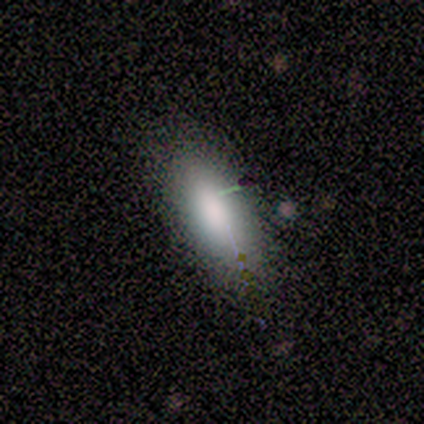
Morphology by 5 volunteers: smooth-or-featured: smooth: 60% | featured or disk: 20% | star or artifact: 20%
  how-rounded: in between: 67% | cigar-shaped: 33% | round: 0%
  merging: none: 50% (tied) | minor disturbance: 50% (tied) | major disturbance: 0% | merger: 0%